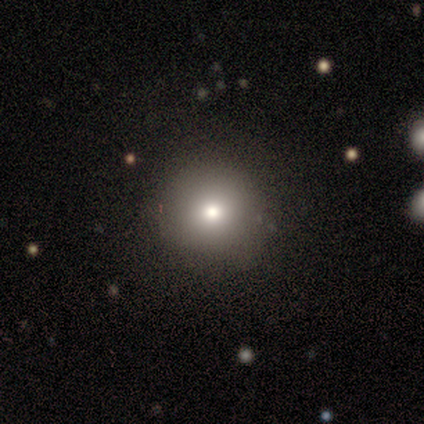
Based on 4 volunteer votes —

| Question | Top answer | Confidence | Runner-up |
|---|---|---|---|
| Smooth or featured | smooth | 100% | — |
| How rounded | round | 100% | — |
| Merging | none | 100% | — |